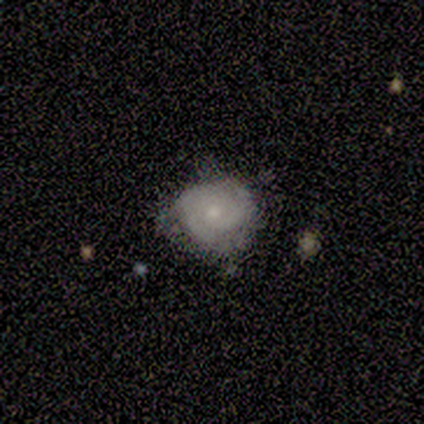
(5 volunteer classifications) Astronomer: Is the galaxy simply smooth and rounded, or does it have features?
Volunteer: smooth — 60% (runner-up: featured or disk, 40%).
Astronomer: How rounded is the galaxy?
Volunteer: round — 67%.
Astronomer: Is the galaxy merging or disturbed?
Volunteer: none — 60% (runner-up: minor disturbance, 40%).